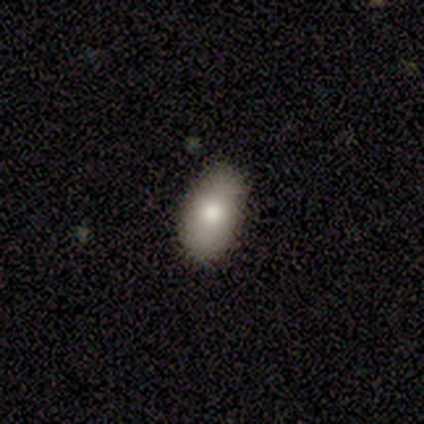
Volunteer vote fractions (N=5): Morphology: type=smooth (60%); roundness=in between (100%); merging=none (100%).